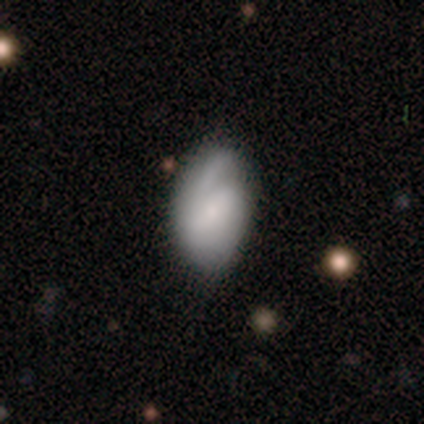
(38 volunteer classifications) smooth_or_featured: smooth (p=0.63) [alt: featured or disk p=0.34]
how_rounded: in between (p=0.92) [alt: round p=0.08]
merging: minor disturbance (p=0.51) [alt: none p=0.38]